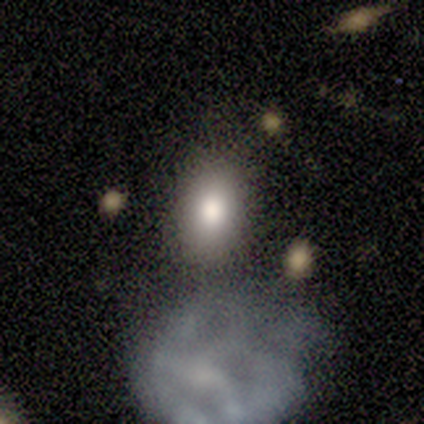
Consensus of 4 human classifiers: Volunteers were most divided on "how rounded": in between: 75%, round: 25%, cigar-shaped: 0%. More confident: smooth or featured — smooth (100%); merging — none (75%).